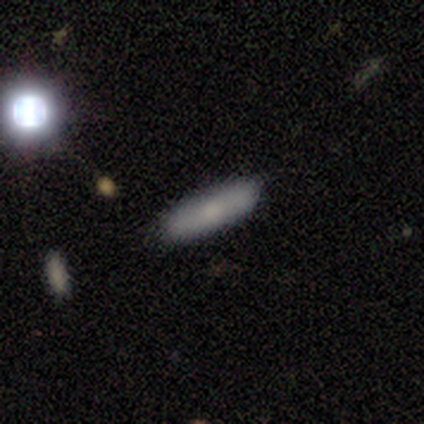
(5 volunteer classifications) Q: Smooth or featured?
A: smooth (80%); runner-up: star or artifact (20%)
Q: How rounded?
A: cigar-shaped (100%)
Q: Merging?
A: none (100%)